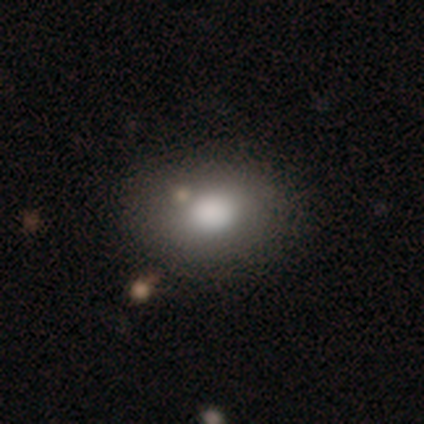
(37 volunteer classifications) Morphology: type=smooth (78%); roundness=in between (72%); merging=none (58%).